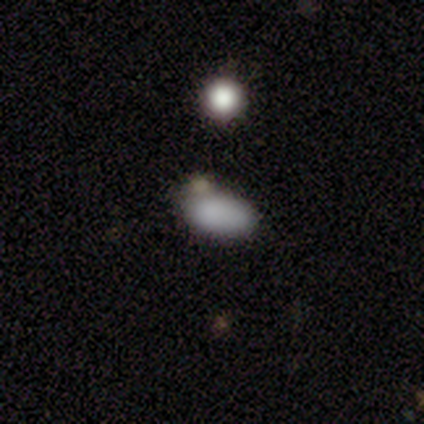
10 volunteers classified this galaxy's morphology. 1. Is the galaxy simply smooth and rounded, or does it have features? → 90% smooth, 10% star or artifact, 0% featured or disk.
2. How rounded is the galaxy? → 100% in between, 0% round, 0% cigar-shaped.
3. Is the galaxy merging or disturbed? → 67% none, 22% major disturbance, 11% minor disturbance, 0% merger.